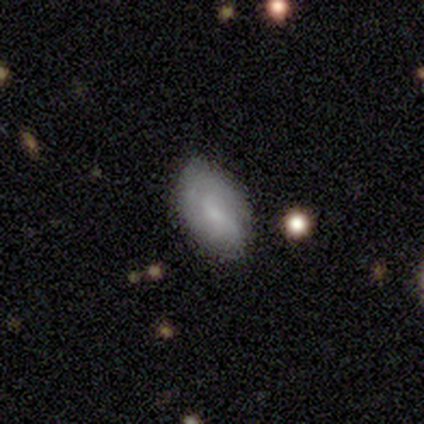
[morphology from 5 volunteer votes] smooth-or-featured: smooth: 80% | star or artifact: 20% | featured or disk: 0%
  how-rounded: in between: 100% | round: 0% | cigar-shaped: 0%
  merging: none: 75% | minor disturbance: 25% | major disturbance: 0% | merger: 0%